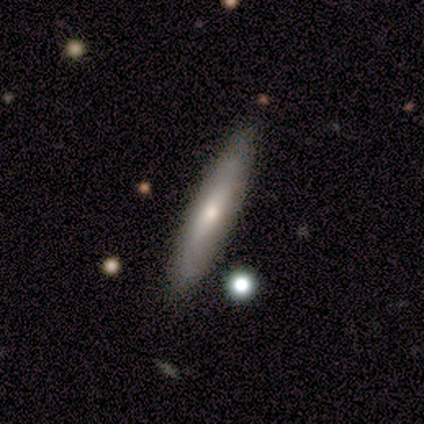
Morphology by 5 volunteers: Smooth or featured? 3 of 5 (60%) said smooth. How rounded? 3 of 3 (100%) said cigar-shaped. Merging? 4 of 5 (80%) said none.